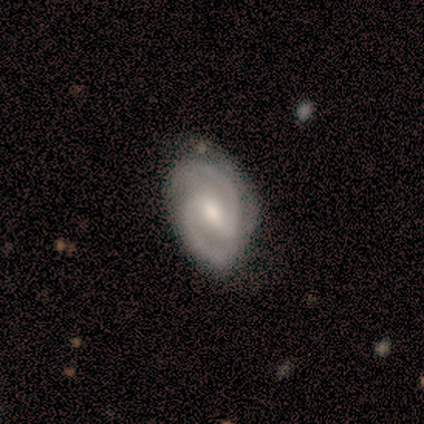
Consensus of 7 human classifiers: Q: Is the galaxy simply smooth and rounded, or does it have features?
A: featured or disk — 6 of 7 (86%).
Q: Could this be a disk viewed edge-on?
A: no — 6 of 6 (100%).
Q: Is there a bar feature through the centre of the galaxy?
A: weak — 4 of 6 (67%).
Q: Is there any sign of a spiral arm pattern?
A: yes — 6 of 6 (100%).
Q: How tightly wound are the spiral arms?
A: medium — 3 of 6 (50%).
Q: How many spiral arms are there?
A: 2 — 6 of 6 (100%).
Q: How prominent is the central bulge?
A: moderate — 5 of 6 (83%).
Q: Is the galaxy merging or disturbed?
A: none — 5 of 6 (83%).